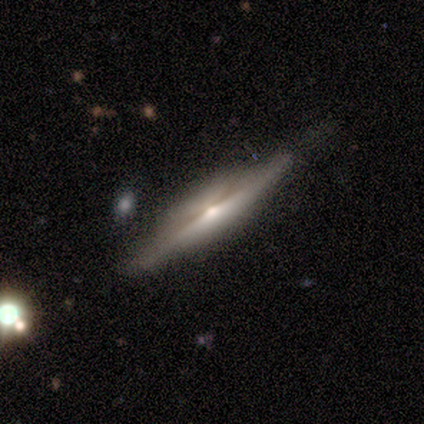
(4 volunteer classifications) This appears to be a featured or disk galaxy (75%) viewed edge-on (67%) with a rounded central bulge (100%). Merging: none (100%).